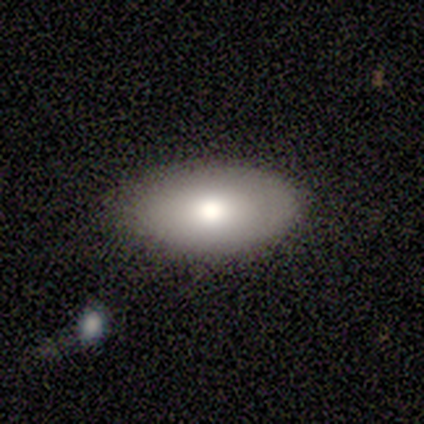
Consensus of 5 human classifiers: smooth 100%, featured or disk 0%, star or artifact 0%. Down the decision tree: how rounded — in between (100%); merging — none (80%).